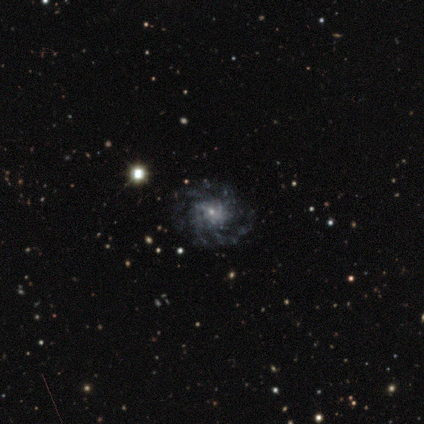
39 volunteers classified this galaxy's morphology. featured or disk 85%, smooth 8%, star or artifact 8%. Down the decision tree: edge-on disk — no (100%); bar — no (58%); spiral arms — yes (94%); spiral arm count — can't tell (32%); spiral winding — tight (55%); bulge size — small (79%); merging — none (78%).